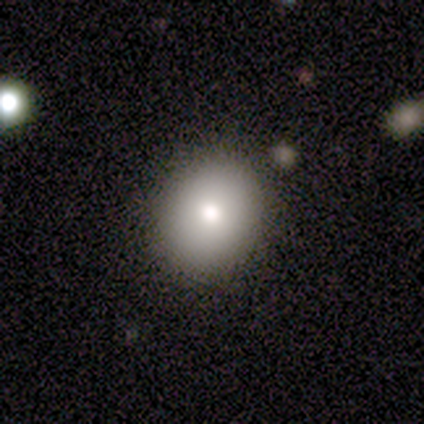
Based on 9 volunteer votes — smooth 89%, star or artifact 11%, featured or disk 0%. Down the decision tree: how rounded — round (50%, tied with in between); merging — none (75%).